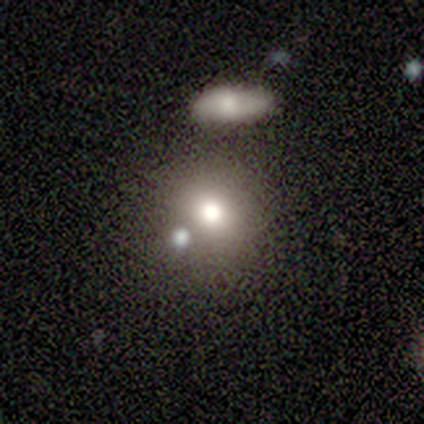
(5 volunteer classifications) Smooth or featured? 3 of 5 (60%) said smooth. How rounded? 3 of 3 (100%) said round. Merging? 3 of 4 (75%) said none.